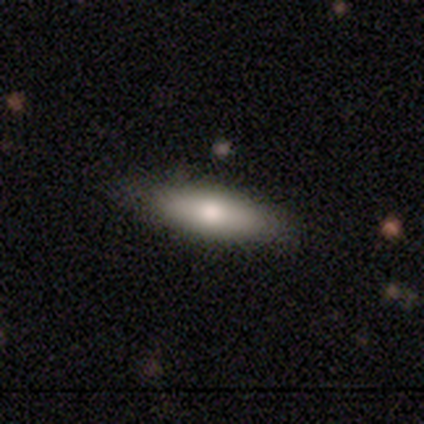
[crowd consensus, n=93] Q: Smooth or featured?
A: smooth (65%); runner-up: featured or disk (32%)
Q: How rounded?
A: in between (53%); runner-up: cigar-shaped (47%)
Q: Merging?
A: none (90%); runner-up: minor disturbance (9%)